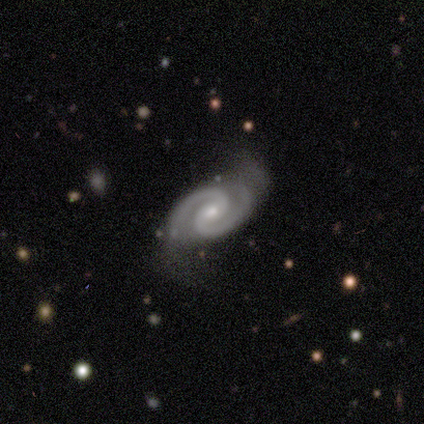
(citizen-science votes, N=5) Smooth or featured?
  - featured or disk: 100% *
  - smooth: 0%
  - star or artifact: 0%
Edge-on disk?
  - no: 100% *
  - yes: 0%
Bar?
  - weak: 80% *
  - no: 20%
  - strong: 0%
Spiral arms?
  - yes: 100% *
  - no: 0%
Spiral winding?
  - tight: 80% *
  - medium: 20%
  - loose: 0%
Spiral arm count?
  - 2: 100% *
  - 1: 0%
  - 3: 0%
  - 4: 0%
  - more than 4: 0%
  - can't tell: 0%
Bulge size?
  - small: 60% *
  - large: 20%
  - moderate: 20%
  - dominant: 0%
  - none: 0%
Merging?
  - none: 60% *
  - minor disturbance: 40%
  - major disturbance: 0%
  - merger: 0%